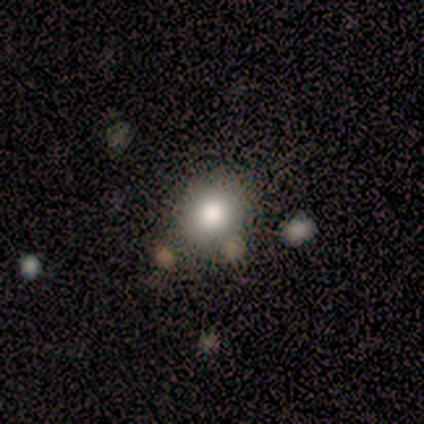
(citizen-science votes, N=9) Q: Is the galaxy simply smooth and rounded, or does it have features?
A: smooth — 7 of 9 (78%).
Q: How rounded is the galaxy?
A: round — 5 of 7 (71%).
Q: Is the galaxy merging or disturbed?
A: none — 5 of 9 (56%).